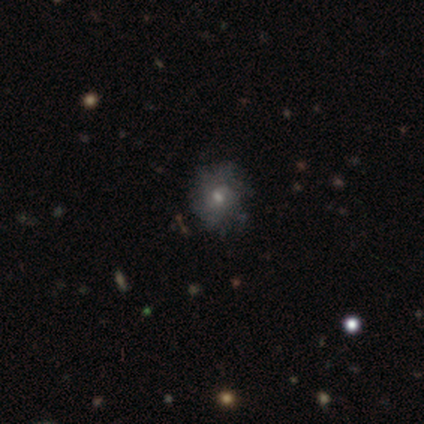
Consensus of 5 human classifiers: Volunteers were most divided on "spiral winding" (3-way tie): tight: 33%, medium: 33%, loose: 33%. More confident: edge-on disk — no (100%); spiral arms — yes (100%); merging — none (80%); bar — weak (67%); spiral arm count — can't tell (67%); bulge size — moderate (67%); smooth or featured — featured or disk (60%).